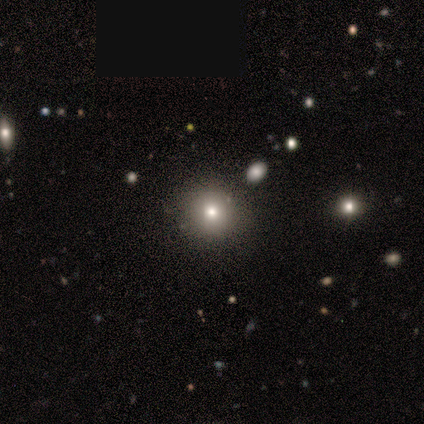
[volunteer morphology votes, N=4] A smooth galaxy with no disk features (75%) that is round (100%). Merging: none (100%).